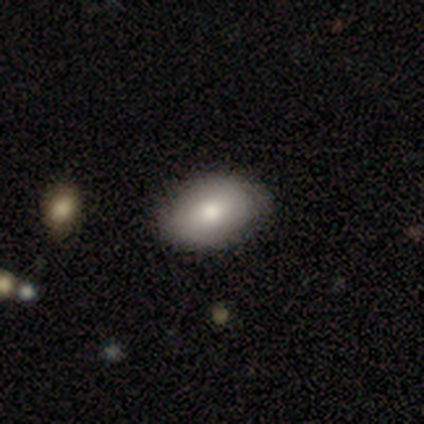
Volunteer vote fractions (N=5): A smooth galaxy with no disk features (80%) that is in between round and cigar-shaped (100%).

Vote fractions:
- Smooth or featured? smooth: 80% / featured or disk: 20% / star or artifact: 0%
- How rounded? in between: 100% / round: 0% / cigar-shaped: 0%
- Merging? none: 80% / merger: 20% / minor disturbance: 0% / major disturbance: 0%